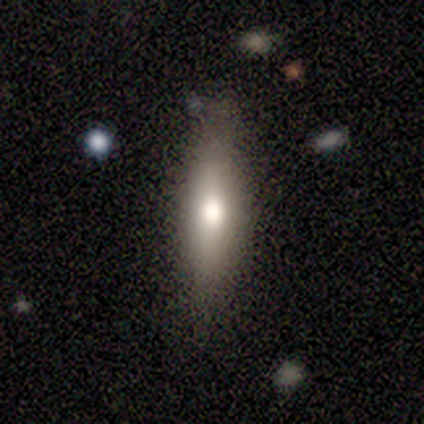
smooth_or_featured: smooth (p=0.60) [alt: featured or disk p=0.40]
how_rounded: cigar-shaped (p=0.88) [alt: in between p=0.12]
merging: none (p=0.75) [alt: minor disturbance p=0.17]